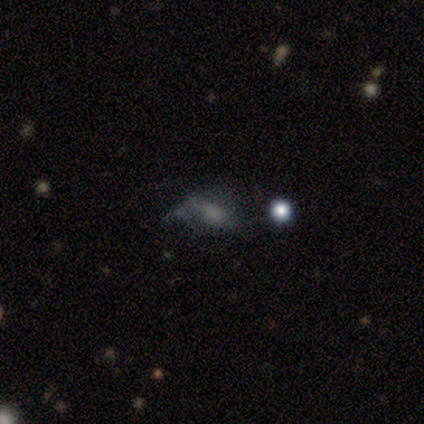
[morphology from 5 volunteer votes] A smooth galaxy with no disk features (40%, tied with featured or disk) that is in between round and cigar-shaped (50%, tied with cigar-shaped). Merging: none (50%).